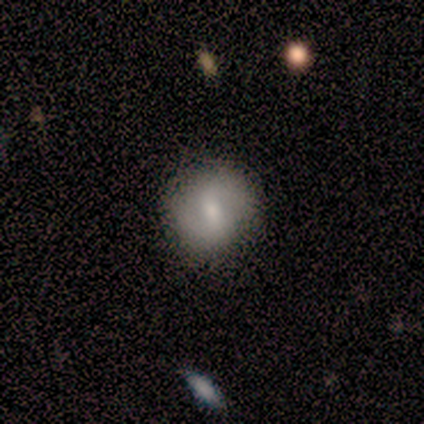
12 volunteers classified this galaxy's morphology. smooth-or-featured: featured or disk: 58% | smooth: 42% | star or artifact: 0%
  disk-edge-on: no: 100% | yes: 0%
    bar: weak: 57% | no: 29% | strong: 14%
    has-spiral-arms: yes: 100% | no: 0%
      spiral-winding: tight: 43% | medium: 29% | loose: 29%
      spiral-arm-count: 2: 100% | 1: 0% | 3: 0% | 4: 0% | more than 4: 0% | can't tell: 0%
    bulge-size: moderate: 43% (tied) | small: 43% (tied) | large: 14% | dominant: 0% | none: 0%
  merging: none: 83% | minor disturbance: 8% | major disturbance: 8% | merger: 0%